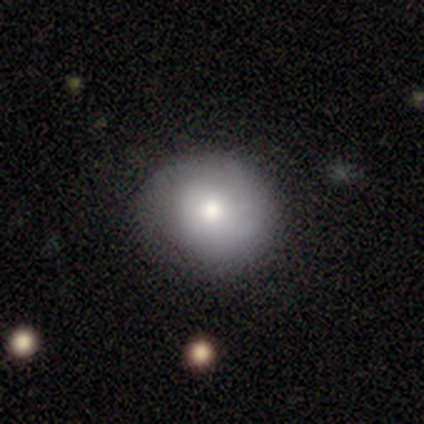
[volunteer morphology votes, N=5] smooth-or-featured: smooth: 60% | featured or disk: 40% | star or artifact: 0%
  how-rounded: round: 100% | in between: 0% | cigar-shaped: 0%
  merging: none: 100% | minor disturbance: 0% | major disturbance: 0% | merger: 0%